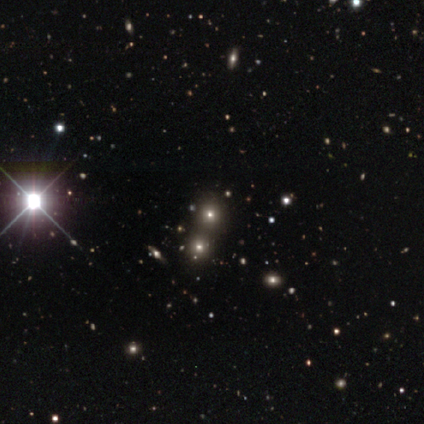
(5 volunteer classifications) Overall: star or artifact (80%).